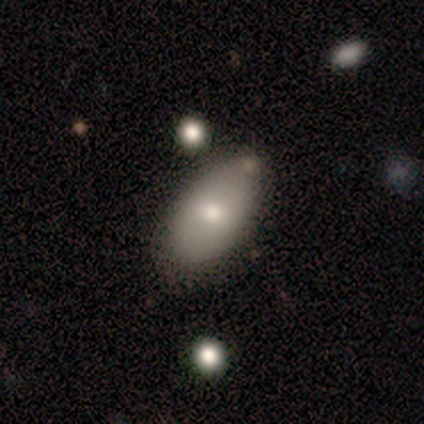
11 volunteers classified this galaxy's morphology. Q: Smooth or featured?
A: smooth (91%); runner-up: featured or disk (9%)
Q: How rounded?
A: in between (100%)
Q: Merging?
A: none (82%); runner-up: minor disturbance (18%)